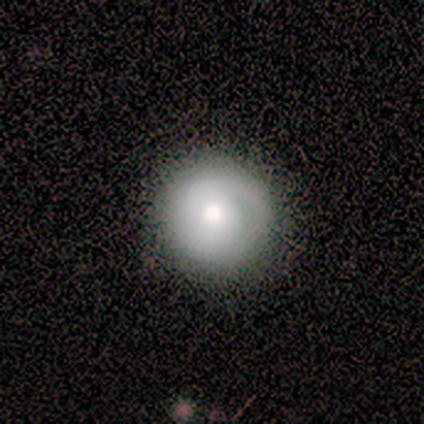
A smooth galaxy with no disk features (100%) that is round (83%). Merging: none (50%, tied with minor disturbance).